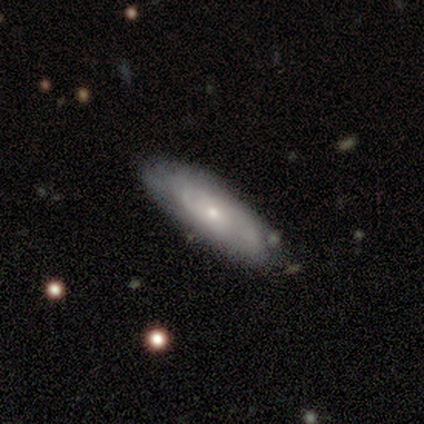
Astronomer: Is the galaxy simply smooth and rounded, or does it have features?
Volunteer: featured or disk — 66%.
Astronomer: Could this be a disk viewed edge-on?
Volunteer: no — 73%.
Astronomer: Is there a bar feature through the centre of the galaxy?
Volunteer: no — 87%.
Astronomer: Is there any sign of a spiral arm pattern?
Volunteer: yes — 87%.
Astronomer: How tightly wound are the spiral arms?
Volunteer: tight — 73%.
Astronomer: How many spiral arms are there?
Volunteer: can't tell — 70%.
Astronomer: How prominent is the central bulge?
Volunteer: small — 66%.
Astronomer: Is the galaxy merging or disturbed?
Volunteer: none — 40%.